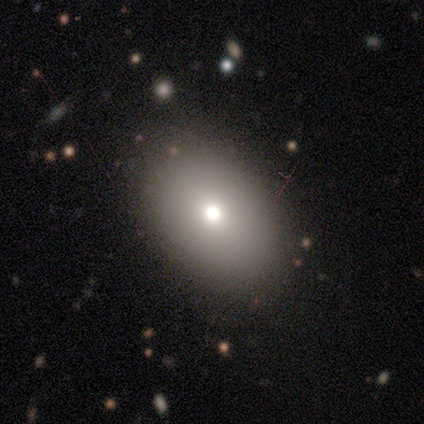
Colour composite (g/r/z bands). It shows a smooth galaxy with no disk features (80%) that is in between round and cigar-shaped (100%). Merging: none (100%).